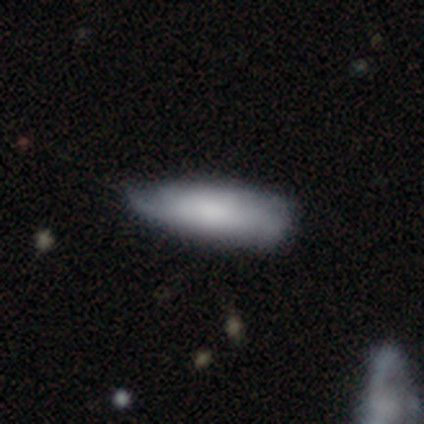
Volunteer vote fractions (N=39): This appears to be a smooth galaxy with no disk features (59%) that is in between round and cigar-shaped (70%). Merging: minor disturbance (56%).